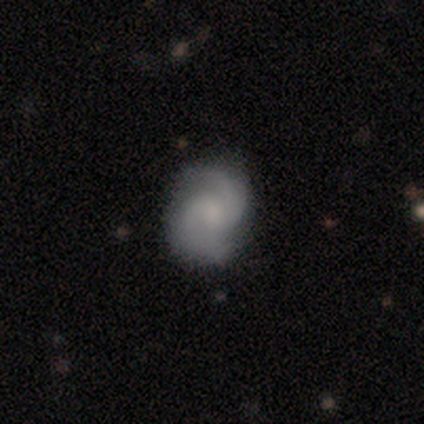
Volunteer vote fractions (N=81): A featured or disk galaxy (73%) with no bar (57%), 2 (80%) medium (54%) spiral arms (93%) and a small central bulge (47%). Merging: none (82%).